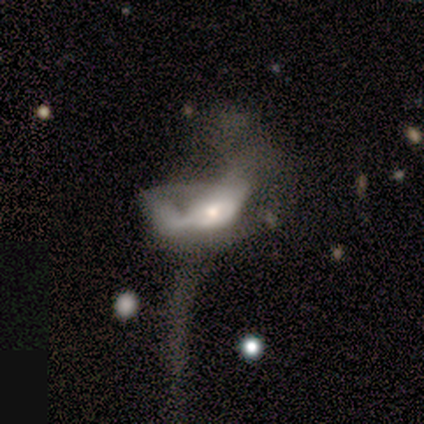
Overall: featured or disk (75%). Edge-on disk: no (67%; yes 33%). Bar: no (100%). Spiral arms: yes (50%, tied with no). Spiral arm count: 2 (100%). Spiral winding: medium (100%). Bulge size: small (100%). Merging: major disturbance (100%).